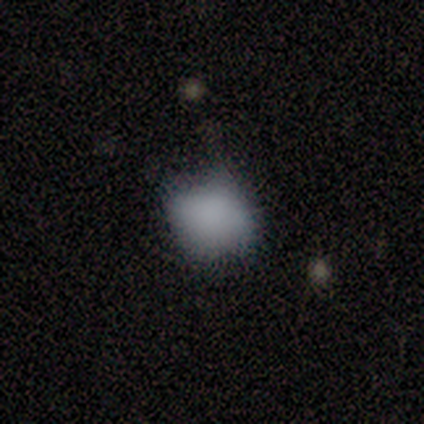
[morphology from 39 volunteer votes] This appears to be a smooth galaxy with no disk features (79%) that is round (55%). Merging: minor disturbance (50%).